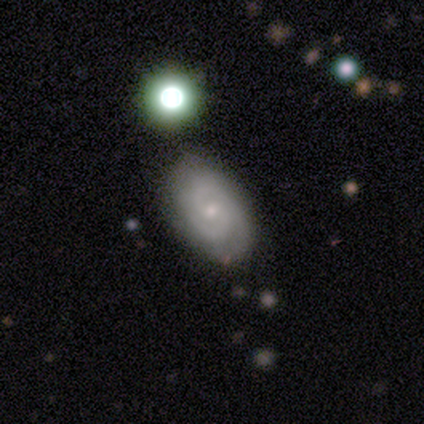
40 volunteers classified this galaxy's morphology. This appears to be a featured or disk galaxy (70%) with no bar (65%), 2 (77%) medium (54%) spiral arms (100%) and a small central bulge (88%). Merging: none (65%).